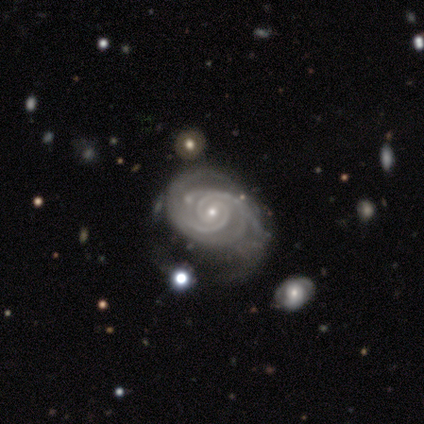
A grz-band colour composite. It shows a featured or disk galaxy (95%) with no bar (62%), 2 (51%) tight (62%) spiral arms (100%) and a small central bulge (77%). Merging: none (36%).